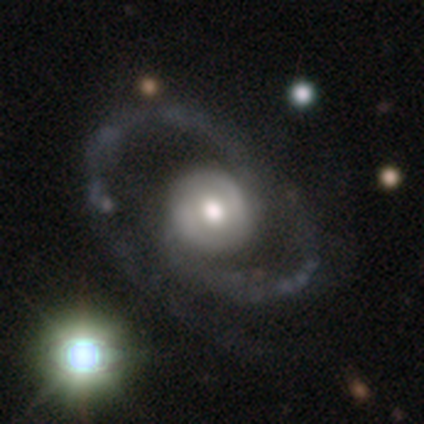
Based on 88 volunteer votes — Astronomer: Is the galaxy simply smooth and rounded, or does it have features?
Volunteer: featured or disk — 85%.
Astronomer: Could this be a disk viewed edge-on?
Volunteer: no — 95%.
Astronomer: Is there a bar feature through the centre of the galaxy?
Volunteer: no — 62%.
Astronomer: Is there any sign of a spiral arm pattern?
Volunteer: yes — 86%.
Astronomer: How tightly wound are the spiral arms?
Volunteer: medium — 43% (runner-up: tight, 31%).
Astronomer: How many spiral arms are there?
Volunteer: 2 — 72%.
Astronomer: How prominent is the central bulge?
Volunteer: moderate — 66%.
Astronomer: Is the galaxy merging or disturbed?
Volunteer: none — 67%.